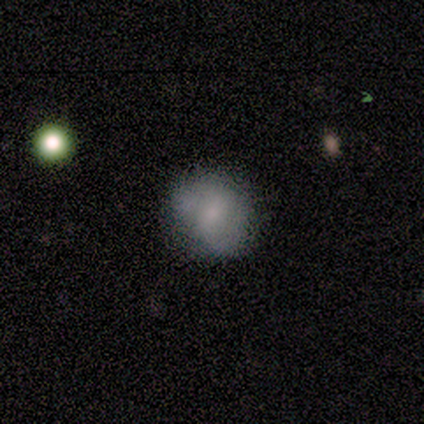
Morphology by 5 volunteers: A smooth galaxy with no disk features (40%, tied with featured or disk) that is round (50%, tied with in between). Merging: none (100%).